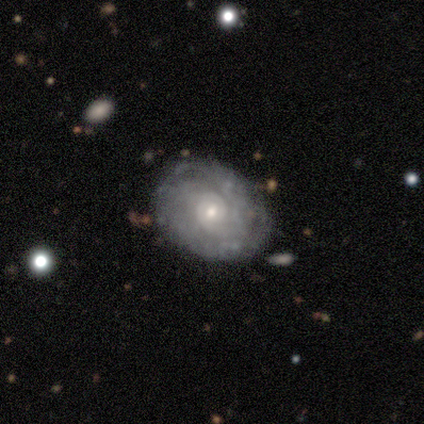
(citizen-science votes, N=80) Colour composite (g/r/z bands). It shows a featured or disk galaxy (81%) with no bar (71%), tight (75%) spiral arms (91%) and a small central bulge (51%). Merging: none (38%).